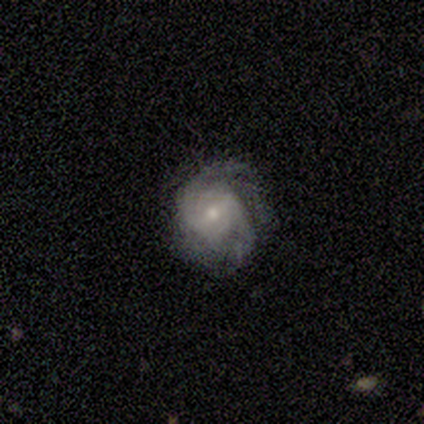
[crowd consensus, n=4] A featured or disk galaxy (100%) with no bar (50%), 2 (50%, tied with can't tell) medium (50%) spiral arms (100%) and a small central bulge (75%).

Vote fractions:
- Smooth or featured? featured or disk: 100% / smooth: 0% / star or artifact: 0%
- Edge-on disk? no: 100% / yes: 0%
- Bar? no: 50% / strong: 25% / weak: 25%
- Spiral arms? yes: 100% / no: 0%
- Spiral winding? medium: 50% / tight: 25% / loose: 25%
- Spiral arm count? 2: 50% (tied) / can't tell: 50% (tied) / 1: 0% / 3: 0% / 4: 0% / more than 4: 0%
- Bulge size? small: 75% / moderate: 25% / dominant: 0% / large: 0% / none: 0%
- Merging? none: 50% (tied) / minor disturbance: 50% (tied) / major disturbance: 0% / merger: 0%